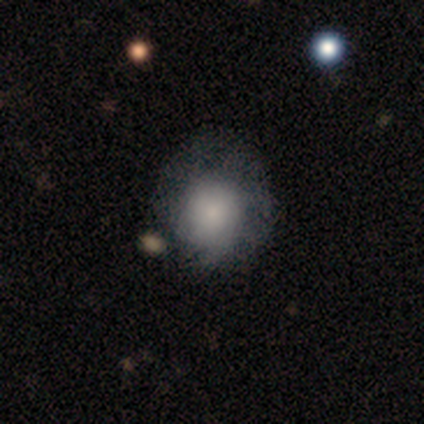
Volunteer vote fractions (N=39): smooth 74%, featured or disk 18%, star or artifact 8%. Down the decision tree: how rounded — round (69%); merging — none (39%).